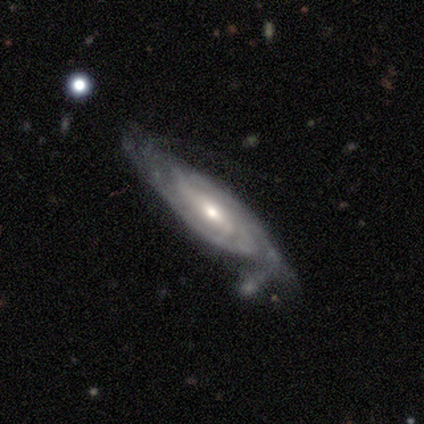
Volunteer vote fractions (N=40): smooth_or_featured: featured or disk (p=0.90) [alt: smooth p=0.07]
disk_edge_on: no (p=0.78) [alt: yes p=0.22]
bar: weak (p=0.50) [alt: no p=0.32]
has_spiral_arms: yes (p=0.96) [alt: no p=0.04]
spiral_winding: tight (p=0.56) [alt: medium p=0.33]
spiral_arm_count: can't tell (p=0.44) [alt: 2 p=0.30]
bulge_size: moderate (p=0.57) [alt: small p=0.39]
merging: none (p=0.54) [alt: minor disturbance p=0.31]